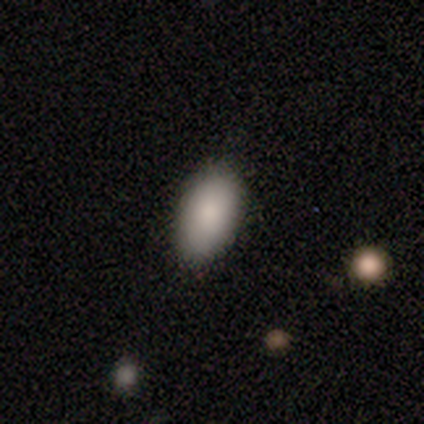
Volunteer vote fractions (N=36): Overall: smooth (94%). How rounded: in between (94%). Merging: none (89%).